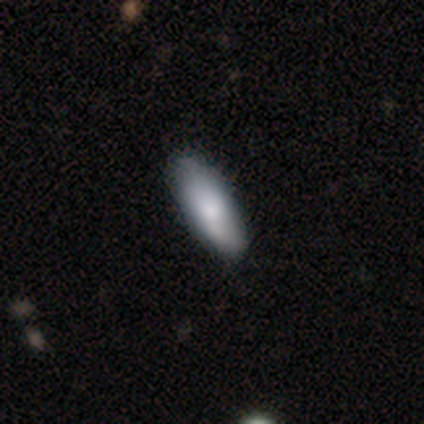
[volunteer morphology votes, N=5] smooth 60%, featured or disk 20%, star or artifact 20%. Down the decision tree: how rounded — in between (100%); merging — none (75%).